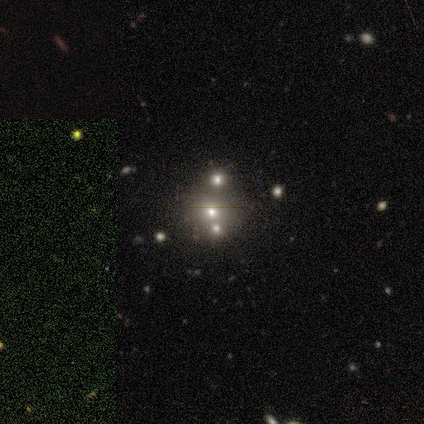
A featured or disk galaxy (50%) with no bar (100%), no spiral arms (100%) and a dominant central bulge (50%, tied with moderate). Merging: none (100%).